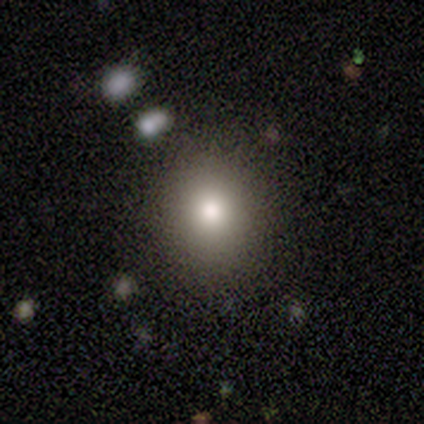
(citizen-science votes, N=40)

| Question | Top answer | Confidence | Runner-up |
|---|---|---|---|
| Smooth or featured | smooth | 70% | star or artifact (18%) |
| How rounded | round | 82% | in between (18%) |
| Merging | none | 79% | minor disturbance (18%) |